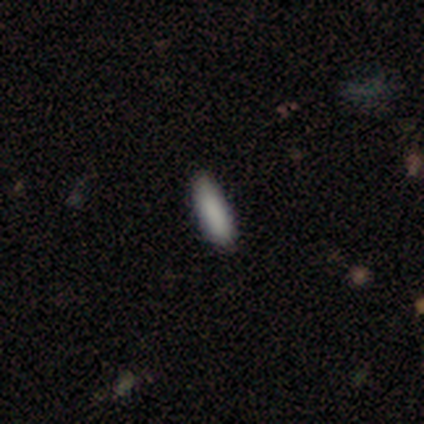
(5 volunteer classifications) smooth-or-featured: smooth: 100% | featured or disk: 0% | star or artifact: 0%
  how-rounded: cigar-shaped: 80% | in between: 20% | round: 0%
  merging: none: 80% | minor disturbance: 20% | major disturbance: 0% | merger: 0%